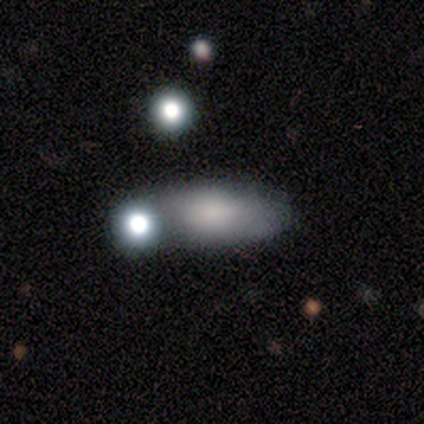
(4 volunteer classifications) smooth 75%, featured or disk 25%, star or artifact 0%. Down the decision tree: how rounded — in between (67%); merging — none (75%).